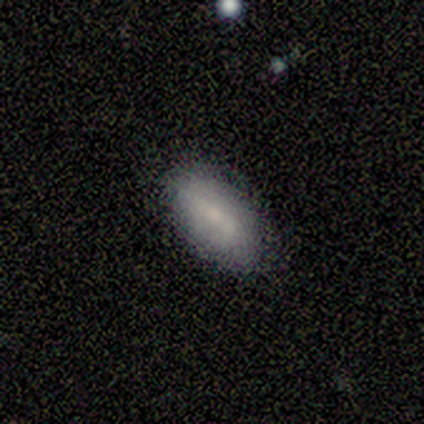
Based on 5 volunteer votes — Overall: smooth (60%; featured or disk 40%). How rounded: in between (100%). Merging: none (60%; minor disturbance 40%).